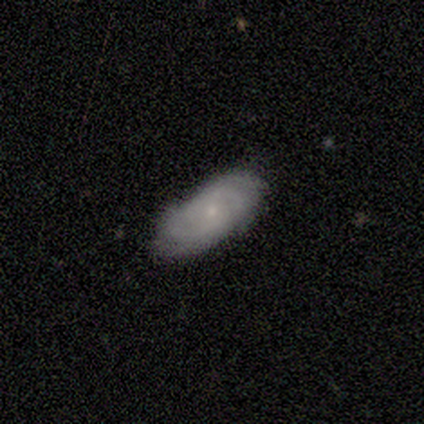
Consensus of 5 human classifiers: smooth-or-featured: smooth: 60% | featured or disk: 40% | star or artifact: 0%
  how-rounded: in between: 100% | round: 0% | cigar-shaped: 0%
  merging: none: 80% | minor disturbance: 20% | major disturbance: 0% | merger: 0%